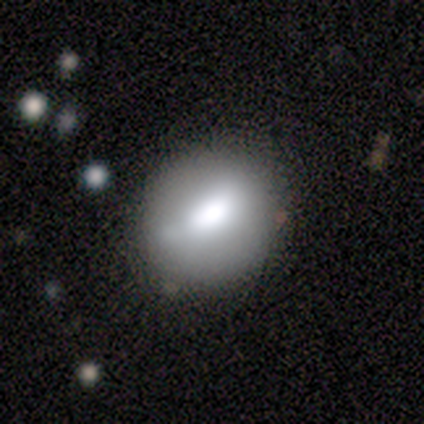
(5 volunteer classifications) Overall: smooth (60%; featured or disk 40%). How rounded: round (100%). Merging: none (80%).